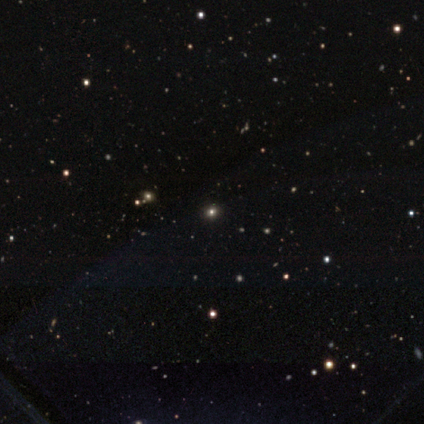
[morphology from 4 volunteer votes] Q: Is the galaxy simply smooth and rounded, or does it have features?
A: smooth — 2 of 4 (50%, tied with star or artifact).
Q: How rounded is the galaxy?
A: round — 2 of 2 (100%).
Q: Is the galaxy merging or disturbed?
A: none — 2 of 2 (100%).